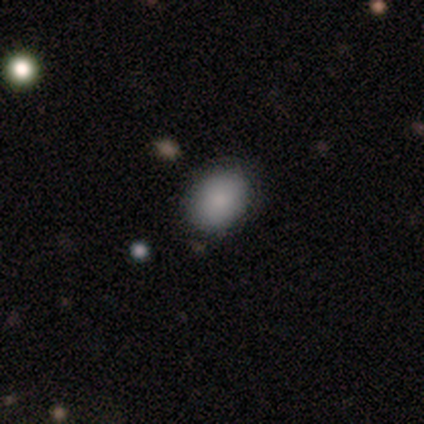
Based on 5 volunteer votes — A smooth galaxy with no disk features (80%) that is in between round and cigar-shaped (75%).

Vote fractions:
- Smooth or featured? smooth: 80% / star or artifact: 20% / featured or disk: 0%
- How rounded? in between: 75% / round: 25% / cigar-shaped: 0%
- Merging? none: 75% / minor disturbance: 25% / major disturbance: 0% / merger: 0%